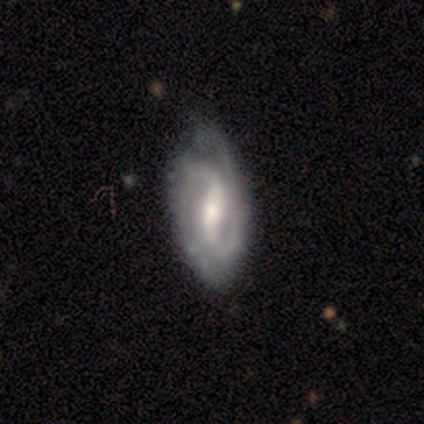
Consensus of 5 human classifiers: Q: Smooth or featured?
A: featured or disk (100%)
Q: Edge-on disk?
A: no (100%)
Q: Bar?
A: strong (60%); runner-up: weak (40%)
Q: Spiral arms?
A: yes (100%)
Q: Spiral winding?
A: medium (60%); runner-up: tight (40%)
Q: Spiral arm count?
A: 2 (80%); runner-up: can't tell (20%)
Q: Bulge size?
A: moderate (80%); runner-up: large (20%)
Q: Merging?
A: none (60%); runner-up: minor disturbance (40%)